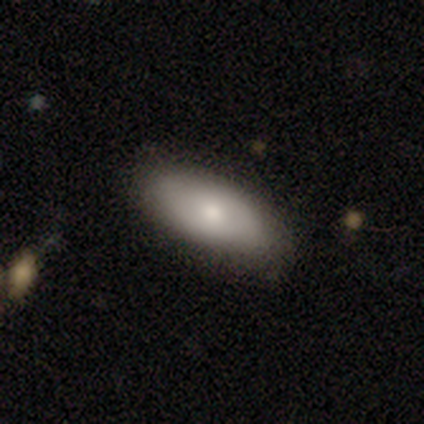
A smooth galaxy with no disk features (75%) that is in between round and cigar-shaped (100%). Merging: none (75%).